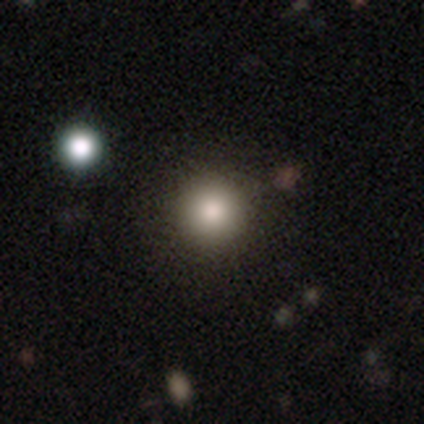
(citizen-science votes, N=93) A smooth galaxy with no disk features (74%) that is round (100%).

Vote fractions:
- Smooth or featured? smooth: 74% / star or artifact: 16% / featured or disk: 10%
- How rounded? round: 100% / in between: 0% / cigar-shaped: 0%
- Merging? none: 90% / minor disturbance: 6% / major disturbance: 3% / merger: 1%